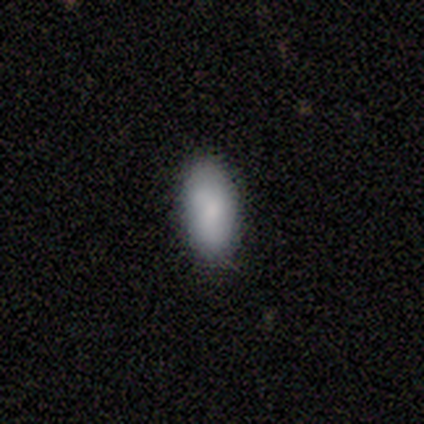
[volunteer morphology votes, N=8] This is clearly a smooth galaxy (100%). How rounded: clearly in between (100%). Merging: likely none (62%).